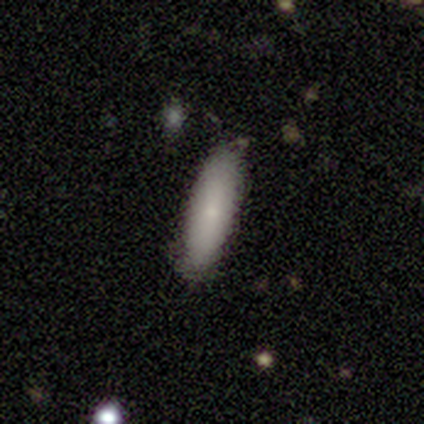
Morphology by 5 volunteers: type=smooth (100%); roundness=in between (60%); merging=none (100%).